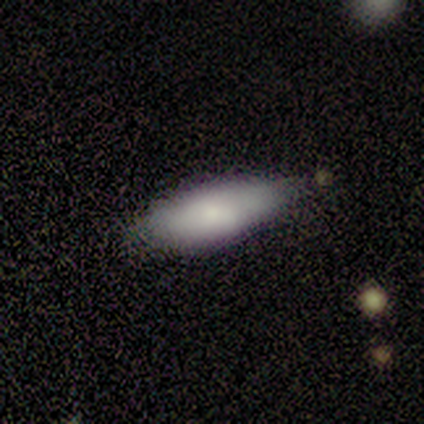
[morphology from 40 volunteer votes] smooth-or-featured: smooth: 80% | featured or disk: 12% | star or artifact: 8%
  how-rounded: in between: 75% | cigar-shaped: 25% | round: 0%
  merging: none: 65% | minor disturbance: 27% | merger: 5% | major disturbance: 3%